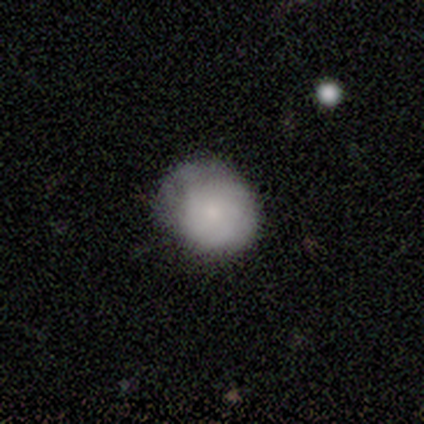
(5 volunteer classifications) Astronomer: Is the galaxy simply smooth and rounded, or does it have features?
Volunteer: smooth — 60% (runner-up: featured or disk, 40%).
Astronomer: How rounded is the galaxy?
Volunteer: round — 67%.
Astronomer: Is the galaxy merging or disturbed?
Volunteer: none — 40%, tied with minor disturbance at 40%.